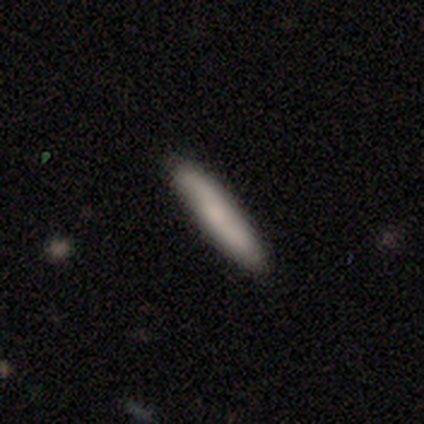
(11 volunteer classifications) Q: Smooth or featured?
A: smooth (82%); runner-up: featured or disk (18%)
Q: How rounded?
A: cigar-shaped (89%); runner-up: in between (11%)
Q: Merging?
A: none (82%); runner-up: minor disturbance (18%)